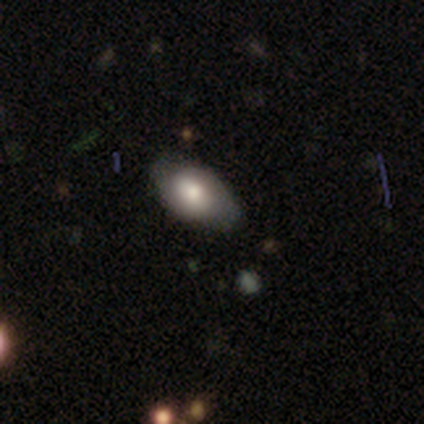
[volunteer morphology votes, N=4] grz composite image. It shows a smooth galaxy with no disk features (75%) that is in between round and cigar-shaped (100%). Merging: none (75%).